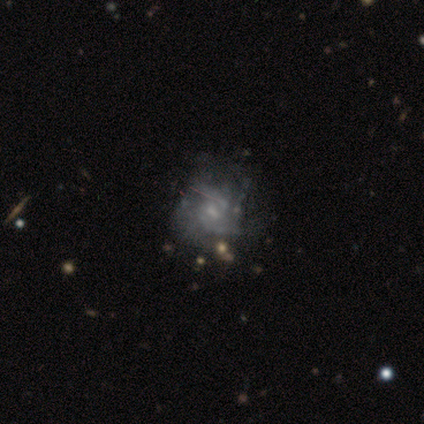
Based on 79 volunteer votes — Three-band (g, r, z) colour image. It shows a featured or disk galaxy (75%) with no bar (68%), 2 (56%) medium (42%) spiral arms (64%) and a small central bulge (46%). Merging: none (32%).